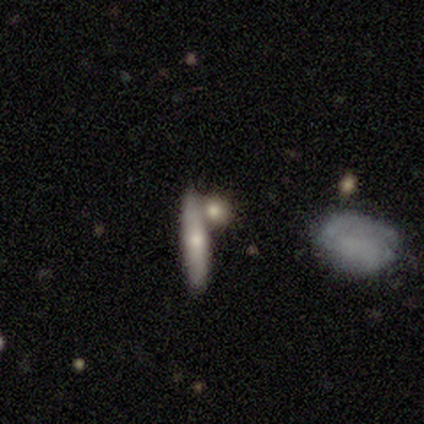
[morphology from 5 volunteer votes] Overall: smooth (40%, tied with featured or disk). How rounded: cigar-shaped (100%). Merging: none (75%).